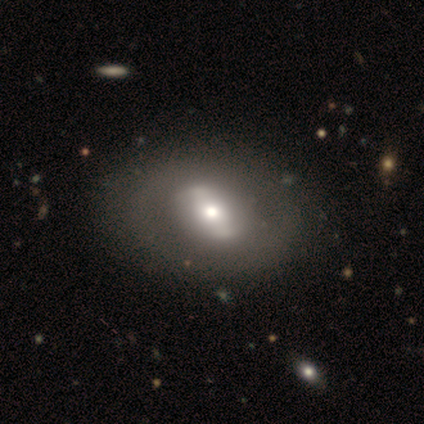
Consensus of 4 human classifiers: smooth_or_featured: featured or disk (p=0.75) [alt: smooth p=0.25]
disk_edge_on: no (p=1.00)
bar: strong (p=0.33) [tied with: weak p=0.33, no p=0.33]
has_spiral_arms: no (p=0.67) [alt: yes p=0.33]
bulge_size: moderate (p=1.00)
merging: none (p=0.75) [alt: minor disturbance p=0.25]